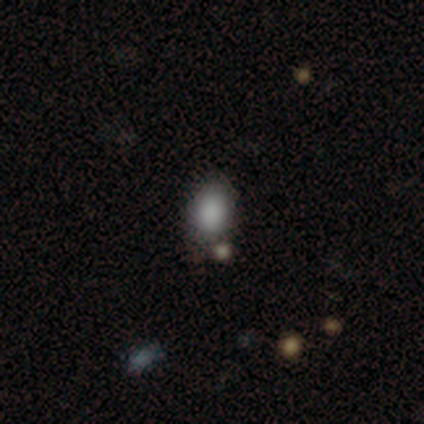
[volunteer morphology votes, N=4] This is likely a smooth galaxy (75%). How rounded: likely in between (67%). Merging: marginally none (33%, tied with minor disturbance and merger).